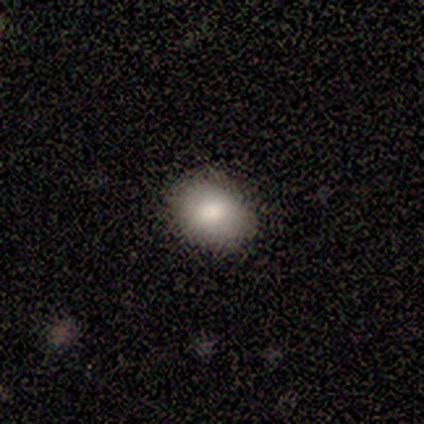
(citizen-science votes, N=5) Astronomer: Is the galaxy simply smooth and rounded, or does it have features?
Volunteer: smooth — 100%.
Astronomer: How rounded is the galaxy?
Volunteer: in between — 60% (runner-up: round, 40%).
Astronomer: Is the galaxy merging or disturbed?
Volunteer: none — 100%.